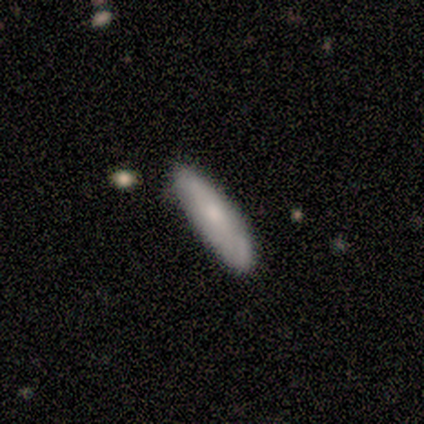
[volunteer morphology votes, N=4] Overall: smooth (100%). How rounded: in between (50%, tied with cigar-shaped). Merging: none (75%).